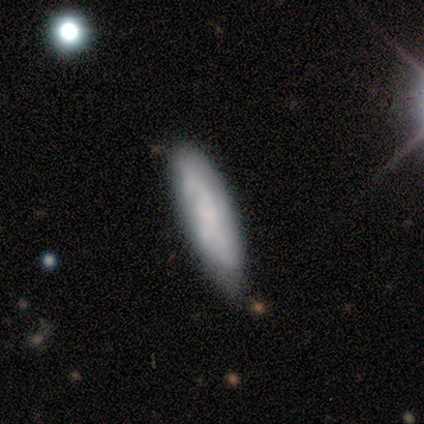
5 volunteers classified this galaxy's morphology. Smooth or featured: smooth — 60% (featured or disk — 40%)
How rounded: cigar-shaped — 67% (in between — 33%)
Merging: none — 80% (minor disturbance — 20%)